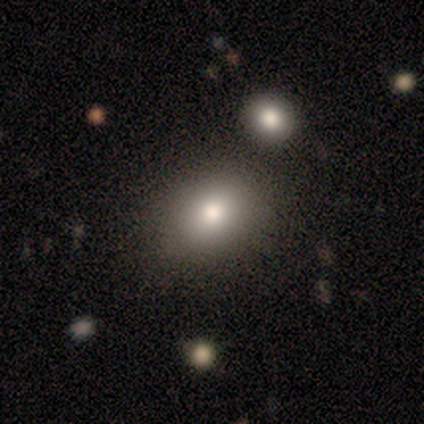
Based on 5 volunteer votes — Q: Smooth or featured?
A: smooth (80%); runner-up: featured or disk (20%)
Q: How rounded?
A: in between (75%); runner-up: round (25%)
Q: Merging?
A: none (80%); runner-up: merger (20%)